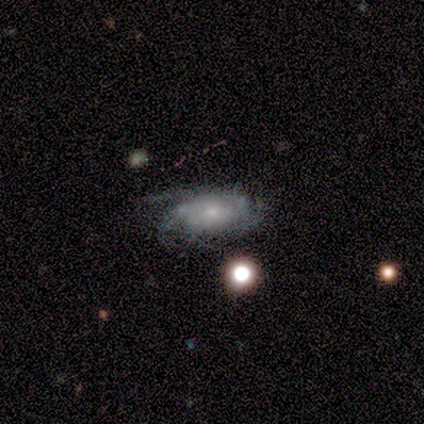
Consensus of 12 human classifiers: A featured or disk galaxy (83%) with no bar (60%), 4 (38%) tight (62%) spiral arms (80%) and a small central bulge (60%).

Vote fractions:
- Smooth or featured? featured or disk: 83% / star or artifact: 17% / smooth: 0%
- Edge-on disk? no: 100% / yes: 0%
- Bar? no: 60% / weak: 40% / strong: 0%
- Spiral arms? yes: 80% / no: 20%
- Spiral winding? tight: 62% / medium: 38% / loose: 0%
- Spiral arm count? 4: 38% / 3: 25% / can't tell: 25% / 2: 12% / 1: 0% / more than 4: 0%
- Bulge size? small: 60% / moderate: 30% / none: 10% / dominant: 0% / large: 0%
- Merging? none: 50% / minor disturbance: 30% / major disturbance: 20% / merger: 0%